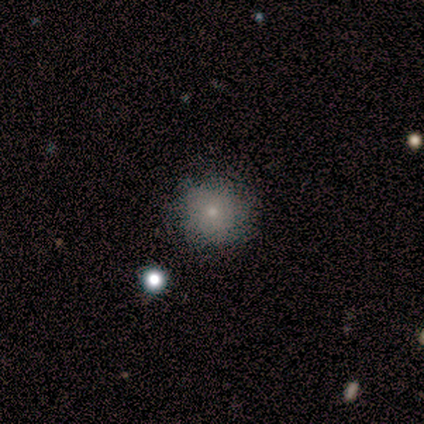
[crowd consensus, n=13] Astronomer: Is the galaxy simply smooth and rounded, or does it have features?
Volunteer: smooth — 54% (runner-up: featured or disk, 38%).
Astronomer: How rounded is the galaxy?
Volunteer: round — 71%.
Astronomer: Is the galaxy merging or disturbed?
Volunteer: none — 75%.